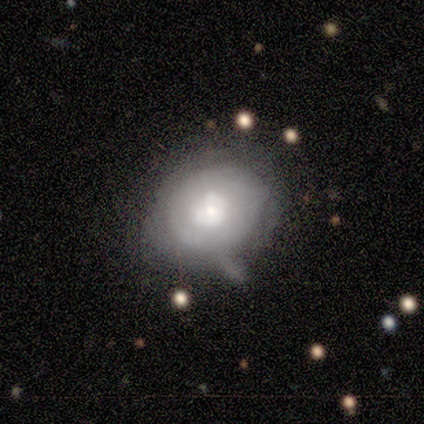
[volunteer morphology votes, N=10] A smooth galaxy with no disk features (50%, tied with featured or disk) that is in between round and cigar-shaped (60%).

Vote fractions:
- Smooth or featured? smooth: 50% (tied) / featured or disk: 50% (tied) / star or artifact: 0%
- How rounded? in between: 60% / round: 40% / cigar-shaped: 0%
- Merging? none: 20% (tied) / minor disturbance: 20% (tied) / merger: 10% / major disturbance: 0%